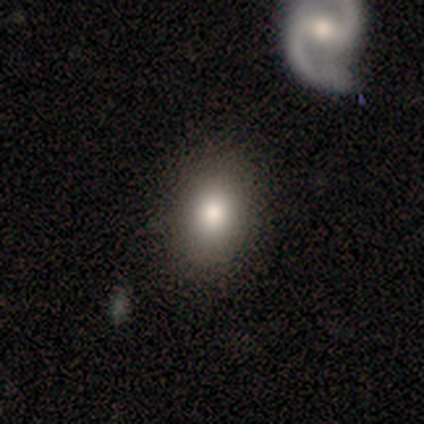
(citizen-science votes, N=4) This is likely a smooth galaxy (75%). How rounded: clearly in between (100%). Merging: clearly none (100%).